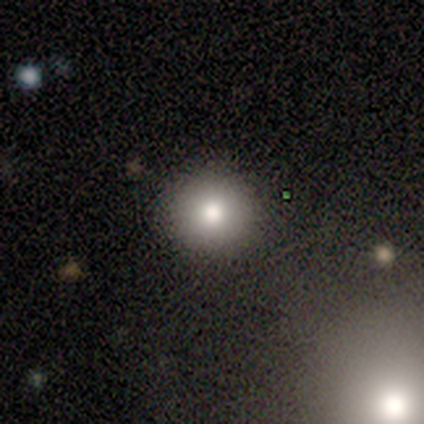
Smooth or featured?
  - smooth: 60% *
  - star or artifact: 40%
  - featured or disk: 0%
How rounded?
  - round: 100% *
  - in between: 0%
  - cigar-shaped: 0%
Merging?
  - none: 100% *
  - minor disturbance: 0%
  - major disturbance: 0%
  - merger: 0%